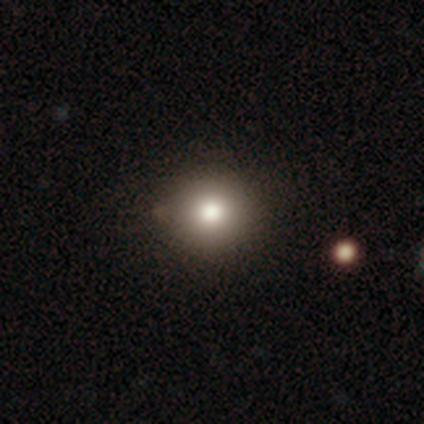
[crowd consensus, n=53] Q: Smooth or featured?
A: smooth (85%); runner-up: star or artifact (9%)
Q: How rounded?
A: round (96%); runner-up: in between (4%)
Q: Merging?
A: none (88%); runner-up: minor disturbance (10%)